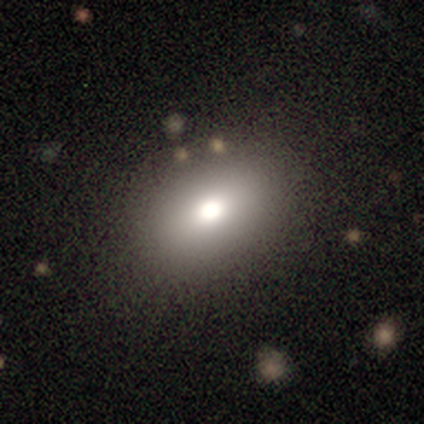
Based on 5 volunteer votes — Smooth or featured? 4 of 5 (80%) said smooth. How rounded? 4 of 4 (100%) said in between. Merging? 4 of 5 (80%) said none.